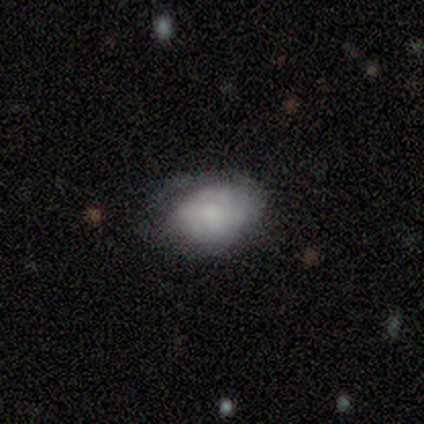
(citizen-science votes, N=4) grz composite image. It shows a smooth galaxy with no disk features (75%) that is in between round and cigar-shaped (100%). Merging: none (67%).